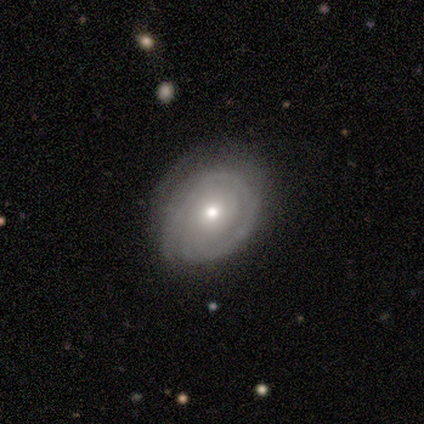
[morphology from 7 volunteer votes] Q: Smooth or featured?
A: featured or disk (71%); runner-up: smooth (29%)
Q: Edge-on disk?
A: no (100%)
Q: Bar?
A: no (100%)
Q: Spiral arms?
A: yes (60%); runner-up: no (40%)
Q: Spiral winding?
A: medium (67%); runner-up: tight (33%)
Q: Spiral arm count?
A: 1 (33%); tied with: 3 (33%); can't tell (33%)
Q: Bulge size?
A: moderate (80%); runner-up: small (20%)
Q: Merging?
A: none (57%); runner-up: minor disturbance (29%)